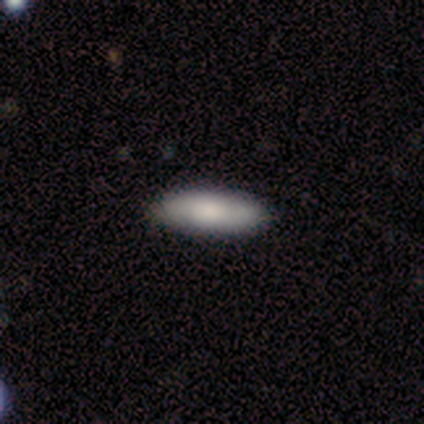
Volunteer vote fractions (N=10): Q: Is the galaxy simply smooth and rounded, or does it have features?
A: smooth — 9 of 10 (90%).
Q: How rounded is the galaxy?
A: in between — 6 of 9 (67%).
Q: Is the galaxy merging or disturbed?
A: none — 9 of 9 (100%).